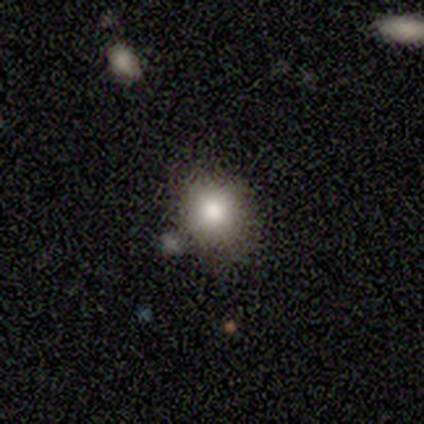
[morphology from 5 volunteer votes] This appears to be a smooth galaxy with no disk features (60%) that is round (67%). Merging: none (100%).